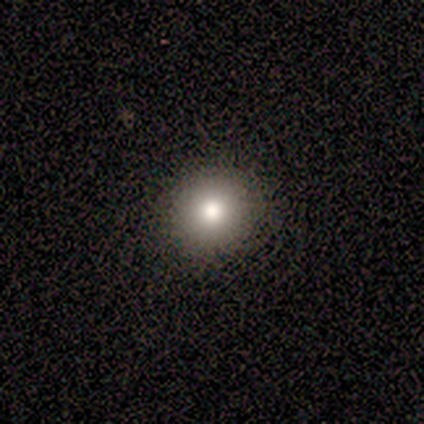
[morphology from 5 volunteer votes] Overall: smooth (60%; featured or disk 20%). How rounded: round (100%). Merging: none (100%).